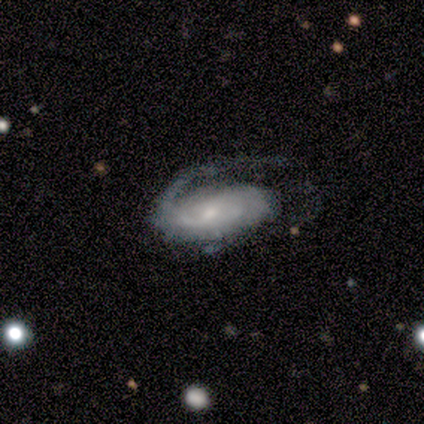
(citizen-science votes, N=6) Smooth or featured? featured or disk (67%)
Edge-on disk? no (100%)
Bar? weak (75%)
Spiral arms? yes (100%)
Spiral winding? medium (50%)
Spiral arm count? 1 (75%)
Bulge size? moderate (50%, tied with small)
Merging? none (67%)